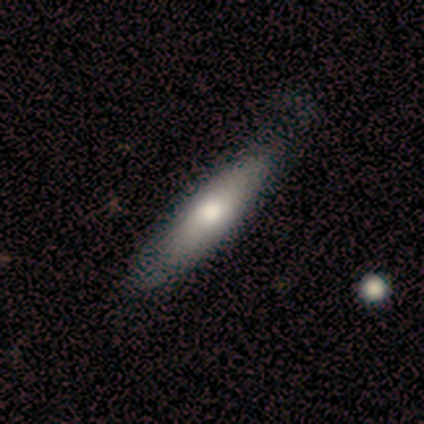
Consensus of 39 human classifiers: This appears to be a smooth galaxy with no disk features (56%) that is cigar-shaped (73%). Merging: none (85%).